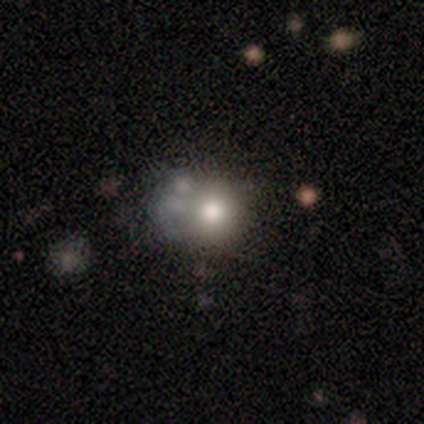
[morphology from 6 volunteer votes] type=smooth (50%); roundness=round (100%); merging=none (75%).